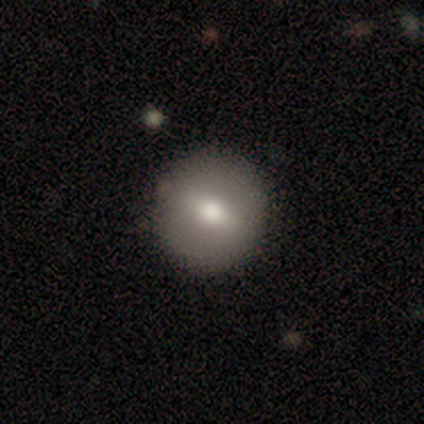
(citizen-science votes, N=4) Volunteers were most divided on "smooth or featured": smooth: 75%, featured or disk: 25%, star or artifact: 0%. More confident: how rounded — round (100%); merging — none (75%).